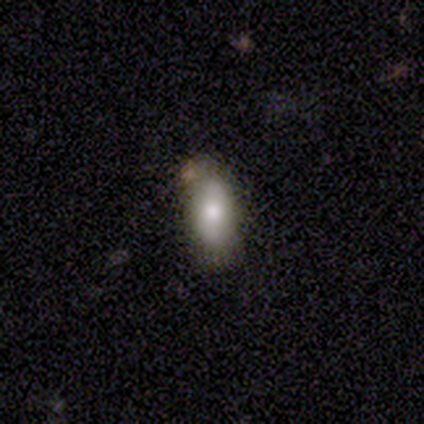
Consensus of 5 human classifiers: Smooth or featured? 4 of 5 (80%) said smooth. How rounded? 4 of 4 (100%) said in between. Merging? 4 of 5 (80%) said none.